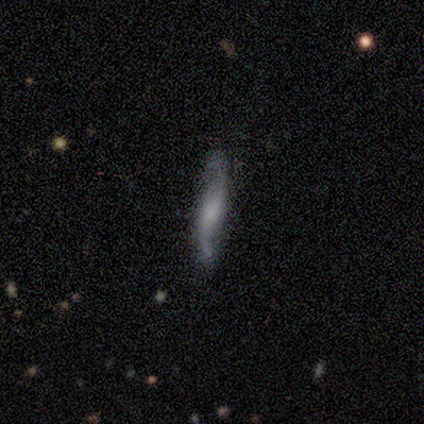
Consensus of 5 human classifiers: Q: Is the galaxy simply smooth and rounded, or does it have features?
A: featured or disk — 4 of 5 (80%).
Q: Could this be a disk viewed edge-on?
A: yes — 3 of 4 (75%).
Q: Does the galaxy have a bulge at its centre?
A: boxy — 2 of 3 (67%).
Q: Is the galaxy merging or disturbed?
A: major disturbance — 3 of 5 (60%).